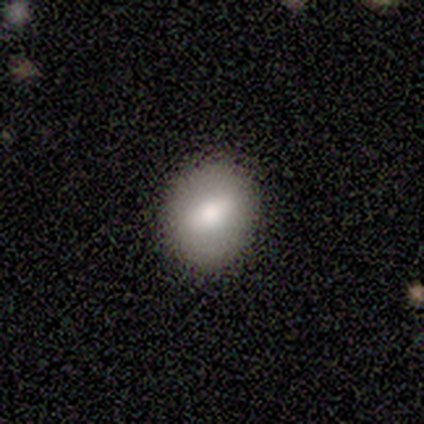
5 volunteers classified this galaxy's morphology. Smooth or featured? smooth (80%)
How rounded? round (100%)
Merging? none (100%)